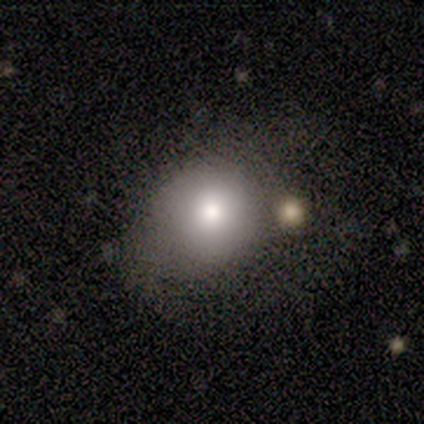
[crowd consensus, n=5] Volunteers were most divided on "how rounded": round: 80%, in between: 20%, cigar-shaped: 0%. More confident: smooth or featured — smooth (100%); merging — major disturbance (80%).